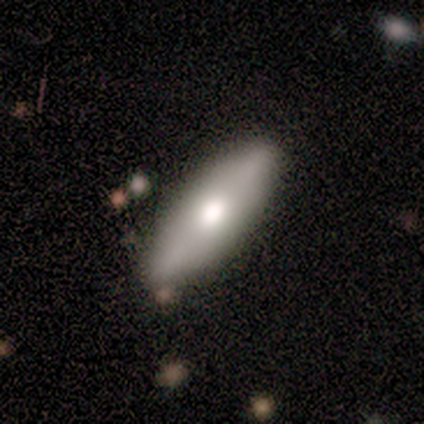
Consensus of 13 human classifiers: This is likely a smooth galaxy (69%). How rounded: possibly in between (56%). Merging: clearly none (92%).